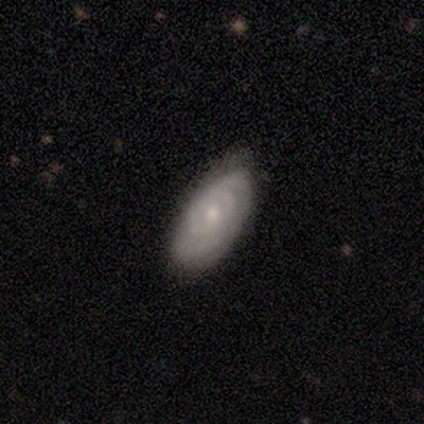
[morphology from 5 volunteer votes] Volunteers were most divided on "spiral winding" (2-way tie): tight: 50%, medium: 50%, loose: 0%. More confident: edge-on disk — no (100%); spiral arms — yes (100%); bulge size — moderate (100%); merging — none (100%); smooth or featured — featured or disk (80%); bar — no (75%); spiral arm count — can't tell (50%).